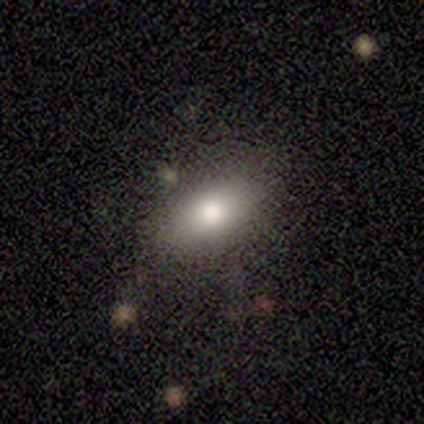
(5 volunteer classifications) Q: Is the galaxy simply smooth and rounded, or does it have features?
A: smooth — 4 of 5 (80%).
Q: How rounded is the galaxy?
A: in between — 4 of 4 (100%).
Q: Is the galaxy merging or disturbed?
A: none — 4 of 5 (80%).